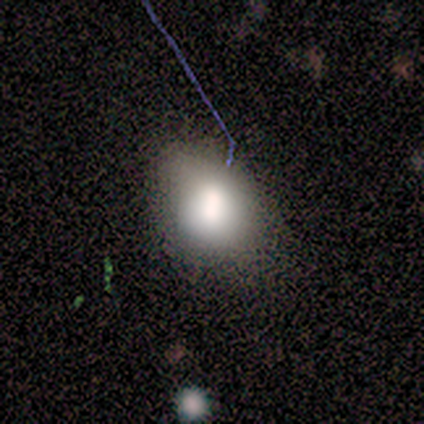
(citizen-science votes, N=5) smooth 100%, featured or disk 0%, star or artifact 0%. Down the decision tree: how rounded — round (80%); merging — none (80%).